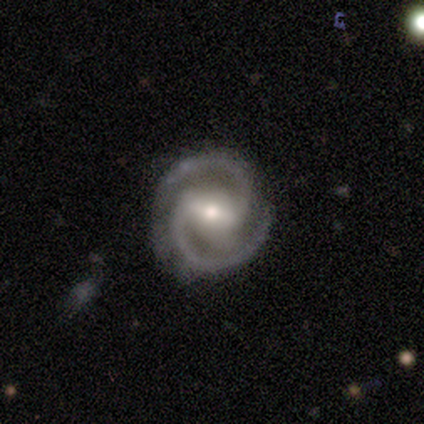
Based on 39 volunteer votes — Q: Smooth or featured?
A: featured or disk (90%); runner-up: smooth (5%)
Q: Edge-on disk?
A: no (97%); runner-up: yes (3%)
Q: Bar?
A: strong (56%); runner-up: weak (32%)
Q: Spiral arms?
A: yes (100%)
Q: Spiral winding?
A: tight (50%); runner-up: medium (41%)
Q: Spiral arm count?
A: 2 (100%)
Q: Bulge size?
A: moderate (62%); runner-up: small (35%)
Q: Merging?
A: none (78%); runner-up: minor disturbance (16%)